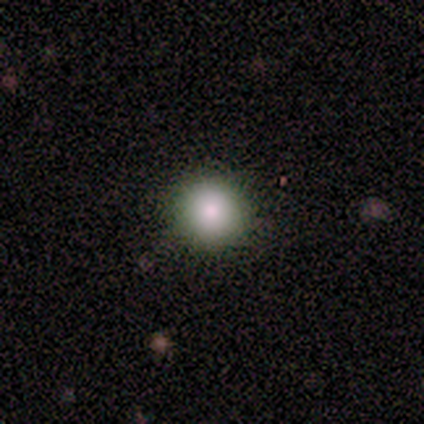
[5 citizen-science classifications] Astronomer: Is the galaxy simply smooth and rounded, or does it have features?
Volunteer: smooth — 60%.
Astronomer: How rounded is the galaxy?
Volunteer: round — 100%.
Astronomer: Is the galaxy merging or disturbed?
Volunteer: none — 100%.